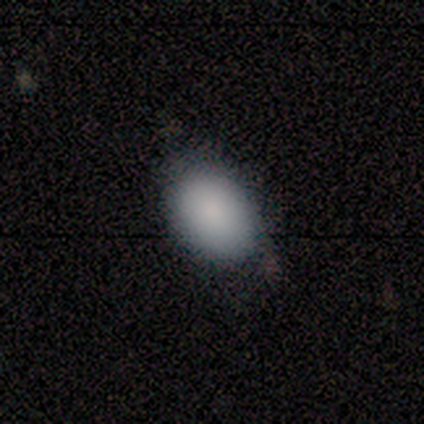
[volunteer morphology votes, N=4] smooth 100%, featured or disk 0%, star or artifact 0%. Down the decision tree: how rounded — in between (100%); merging — none (75%).